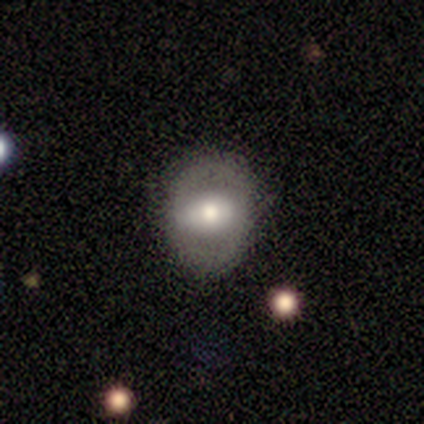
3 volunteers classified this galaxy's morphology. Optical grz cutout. It shows a smooth galaxy with no disk features (100%) that is in between round and cigar-shaped (67%). Merging: none (100%).